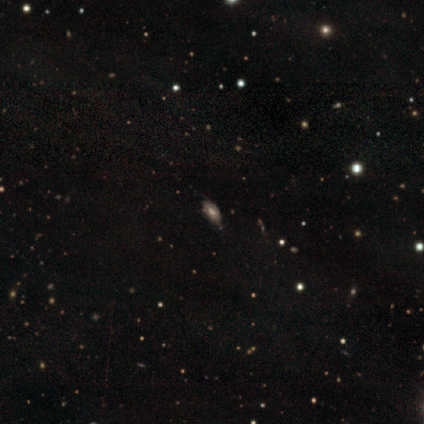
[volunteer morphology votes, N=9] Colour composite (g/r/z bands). It shows a smooth galaxy with no disk features (67%) that is in between round and cigar-shaped (83%). Merging: none (88%).